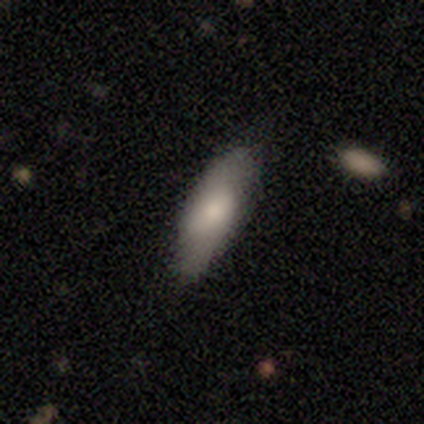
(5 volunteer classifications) Smooth or featured? smooth (80%)
How rounded? in between (100%)
Merging? none (80%)